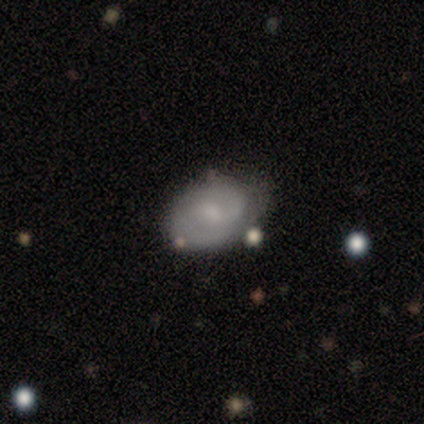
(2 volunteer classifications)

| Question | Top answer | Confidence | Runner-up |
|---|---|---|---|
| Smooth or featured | smooth | 50% | tied: featured or disk (50%) |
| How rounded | in between | 100% | — |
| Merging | none | 100% | — |